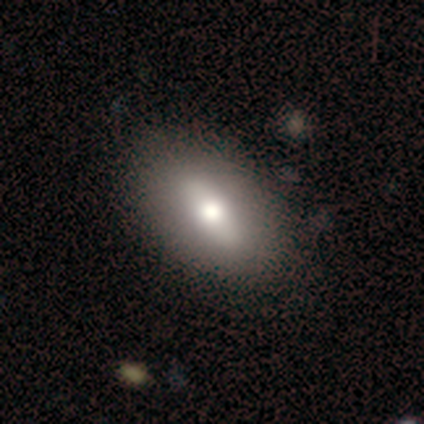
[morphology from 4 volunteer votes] Smooth or featured? featured or disk (50%)
Edge-on disk? no (100%)
Bar? strong (100%)
Spiral arms? no (100%)
Bulge size? large (100%)
Merging? none (67%)